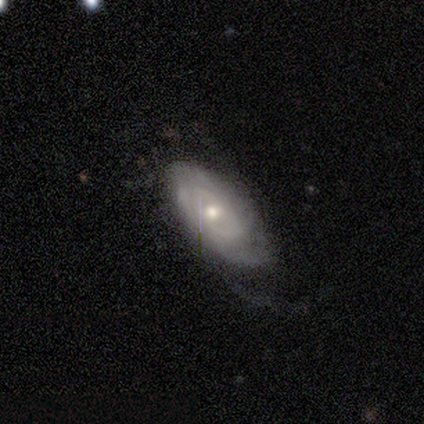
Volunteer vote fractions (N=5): This is clearly a featured or disk galaxy (80%). It is clearly not viewed edge-on (100%). Bar: clearly no (100%). Spiral arm pattern: clearly yes (100%). Spiral arm count: likely can't tell (75%). Spiral winding: possibly tight (50%). Central bulge: likely small (75%). Merging: likely major disturbance (60%).